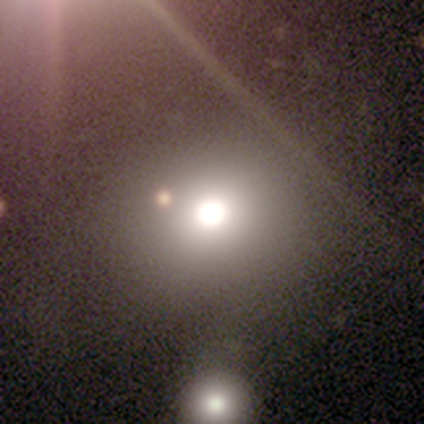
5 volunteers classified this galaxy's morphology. smooth 60%, star or artifact 40%, featured or disk 0%. Down the decision tree: how rounded — round (100%); merging — none (33%, tied with minor disturbance and major disturbance).